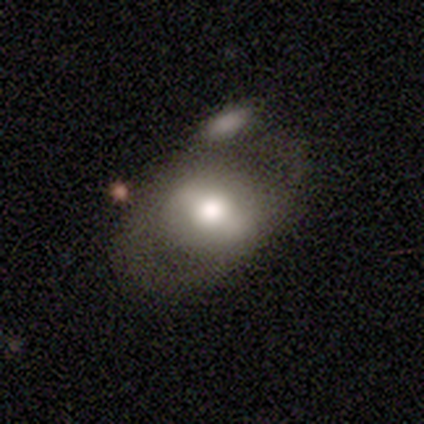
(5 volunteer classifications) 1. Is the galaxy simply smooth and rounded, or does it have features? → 80% featured or disk, 20% smooth, 0% star or artifact.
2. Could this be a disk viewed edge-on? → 100% no, 0% yes.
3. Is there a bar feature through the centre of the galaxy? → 75% strong, 25% weak, 0% no.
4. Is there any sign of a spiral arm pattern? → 50% yes (tied), 50% no (tied).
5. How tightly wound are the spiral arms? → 100% medium, 0% tight, 0% loose.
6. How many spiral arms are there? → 50% 2 (tied), 50% can't tell (tied), 0% 1, 0% 3, 0% 4, 0% more than 4.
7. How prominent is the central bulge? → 50% moderate, 25% dominant, 25% large, 0% small, 0% none.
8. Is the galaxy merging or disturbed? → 40% minor disturbance, 20% none, 20% major disturbance, 20% merger.